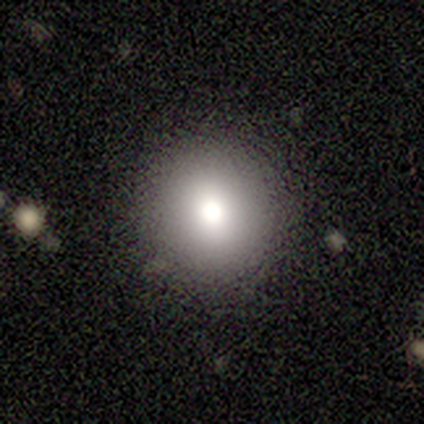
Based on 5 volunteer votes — This appears to be a smooth galaxy with no disk features (80%) that is round (75%). Merging: none (100%).